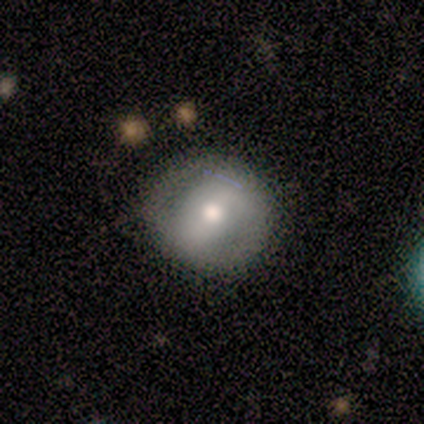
Smooth or featured: smooth — 58% (featured or disk — 42%)
How rounded: round — 71% (in between — 29%)
Merging: none — 42% (tied with minor disturbance — 42%)